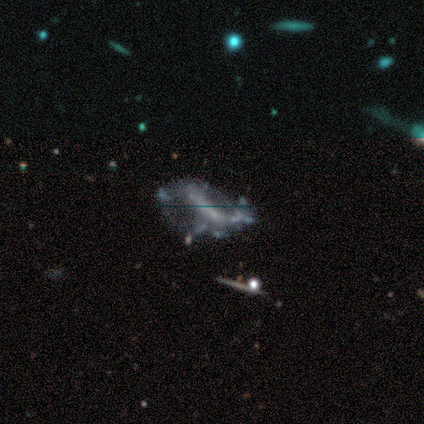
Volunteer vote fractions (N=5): This is clearly a featured or disk galaxy (80%). It is clearly not viewed edge-on (100%). Bar: likely no (75%). Spiral arm pattern: likely no (75%). Central bulge: likely none (75%). Merging: likely major disturbance (75%).